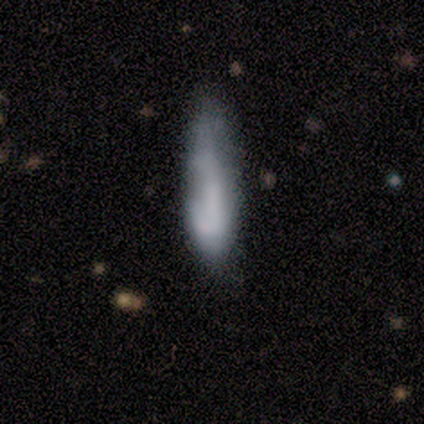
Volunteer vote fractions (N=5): Smooth or featured? 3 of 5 (60%) said featured or disk. Edge-on disk? 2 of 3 (67%) said no. Bar? 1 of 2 (50%, tied with no) said weak. Spiral arms? 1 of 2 (50%, tied with no) said yes. Spiral winding? 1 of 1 (100%) said tight. Spiral arm count? 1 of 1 (100%) said 1. Bulge size? 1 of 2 (50%, tied with small) said large. Merging? 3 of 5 (60%) said minor disturbance.